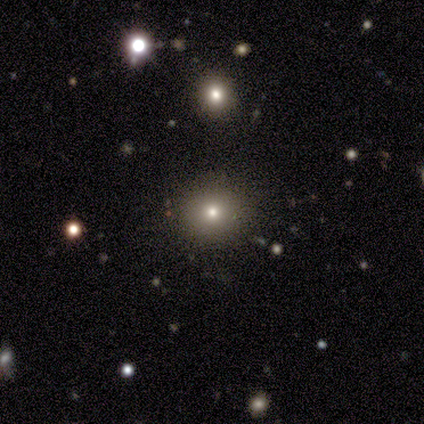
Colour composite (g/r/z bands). It shows a smooth galaxy with no disk features (50%) that is round (50%, tied with in between). Merging: none (100%).